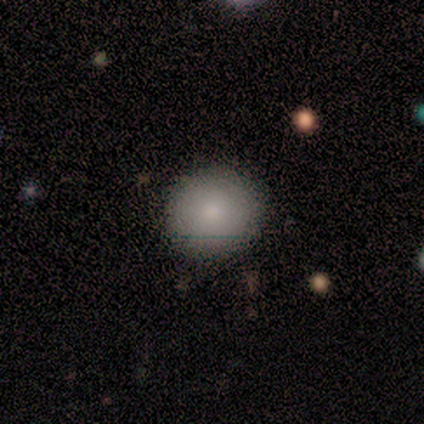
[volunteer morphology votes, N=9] smooth 89%, star or artifact 11%, featured or disk 0%. Down the decision tree: how rounded — round (100%); merging — none (100%).